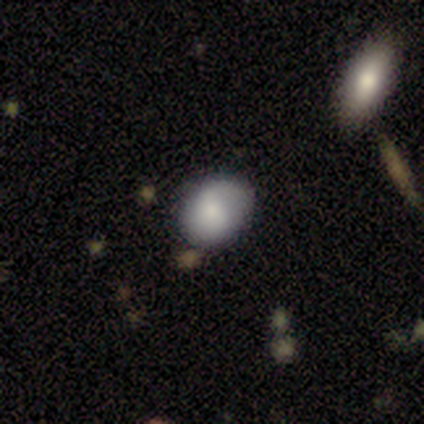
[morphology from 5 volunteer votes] A smooth galaxy with no disk features (100%) that is in between round and cigar-shaped (60%).

Vote fractions:
- Smooth or featured? smooth: 100% / featured or disk: 0% / star or artifact: 0%
- How rounded? in between: 60% / round: 40% / cigar-shaped: 0%
- Merging? none: 80% / minor disturbance: 20% / major disturbance: 0% / merger: 0%